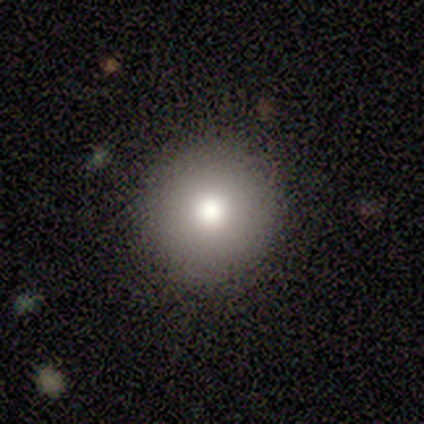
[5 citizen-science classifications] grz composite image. It shows a smooth galaxy with no disk features (60%) that is round (67%). Merging: none (100%).